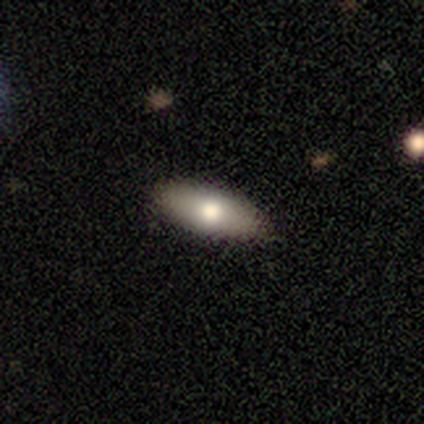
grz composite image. It shows a smooth galaxy with no disk features (80%) that is in between round and cigar-shaped (75%). Merging: none (100%).